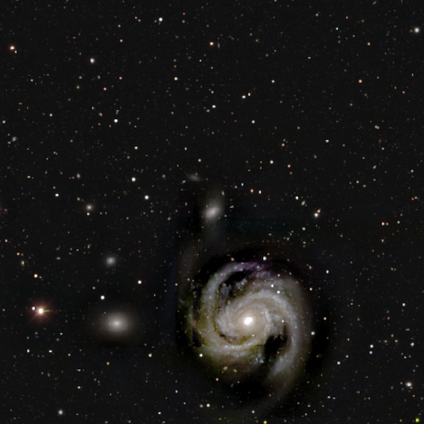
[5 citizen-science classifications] This is clearly a featured or disk galaxy (100%). It is clearly not viewed edge-on (100%). Bar: clearly no (80%). Spiral arm pattern: clearly yes (80%). Spiral arm count: clearly 2 (100%). Spiral winding: possibly tight (50%, tied with medium). Central bulge: clearly small (80%). Merging: likely none (60%).